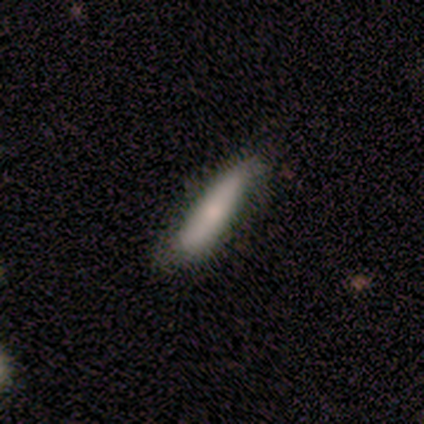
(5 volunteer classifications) A smooth galaxy with no disk features (80%) that is cigar-shaped (100%).

Vote fractions:
- Smooth or featured? smooth: 80% / featured or disk: 20% / star or artifact: 0%
- How rounded? cigar-shaped: 100% / round: 0% / in between: 0%
- Merging? none: 60% / minor disturbance: 20% / major disturbance: 20% / merger: 0%